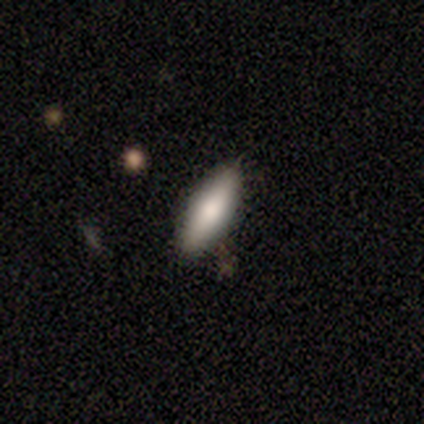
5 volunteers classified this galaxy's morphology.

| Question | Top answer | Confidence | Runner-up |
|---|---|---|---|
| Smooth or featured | smooth | 80% | featured or disk (20%) |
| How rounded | in between | 50% | tied: cigar-shaped (50%) |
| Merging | minor disturbance | 80% | major disturbance (20%) |